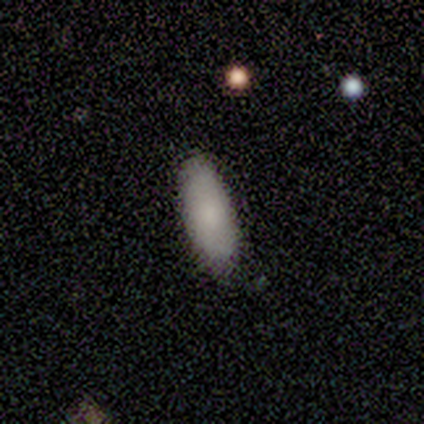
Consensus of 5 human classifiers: Smooth or featured? smooth (100%)
How rounded? in between (100%)
Merging? none (80%)